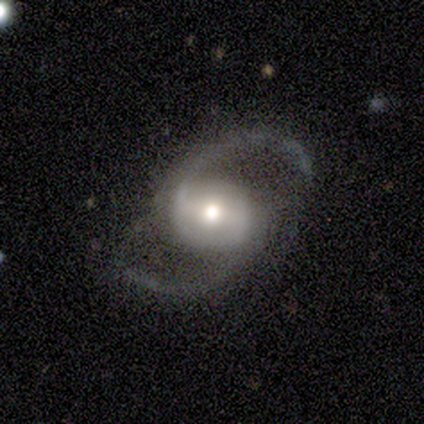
Q: Smooth or featured?
A: featured or disk (93%); runner-up: star or artifact (5%)
Q: Edge-on disk?
A: no (98%); runner-up: yes (2%)
Q: Bar?
A: strong (37%); runner-up: weak (35%)
Q: Spiral arms?
A: yes (94%); runner-up: no (6%)
Q: Spiral winding?
A: medium (51%); runner-up: loose (45%)
Q: Spiral arm count?
A: 2 (100%)
Q: Bulge size?
A: moderate (73%); runner-up: large (15%)
Q: Merging?
A: none (76%); runner-up: minor disturbance (20%)